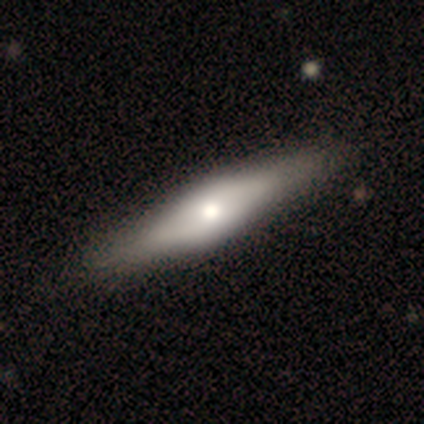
This appears to be a featured or disk galaxy (55%) viewed edge-on (76%) with a rounded central bulge (75%). Merging: none (53%).